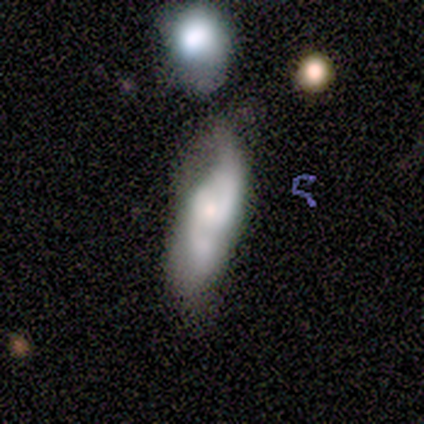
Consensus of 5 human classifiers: This is clearly a featured or disk galaxy (80%). It is clearly not viewed edge-on (100%). Bar: likely no (75%). Spiral arm pattern: clearly yes (100%). Spiral arm count: clearly 2 (100%). Spiral winding: likely loose (75%). Central bulge: possibly moderate (50%, tied with small). Merging: marginally none (40%).